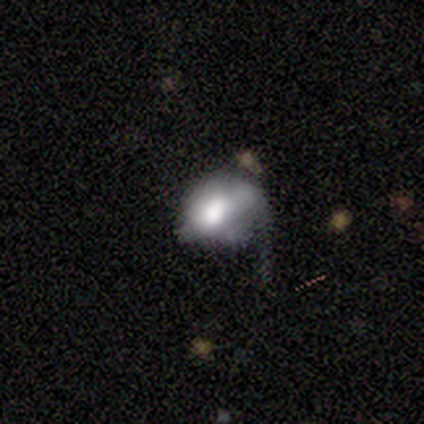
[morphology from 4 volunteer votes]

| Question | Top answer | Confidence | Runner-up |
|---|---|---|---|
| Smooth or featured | featured or disk | 75% | smooth (25%) |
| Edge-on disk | no | 100% | — |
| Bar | no | 100% | — |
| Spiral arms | yes | 67% | no (33%) |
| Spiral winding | loose | 100% | — |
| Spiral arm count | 1 | 100% | — |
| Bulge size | dominant | 33% | tied: large (33%), small (33%) |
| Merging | minor disturbance | 50% | major disturbance (25%) |